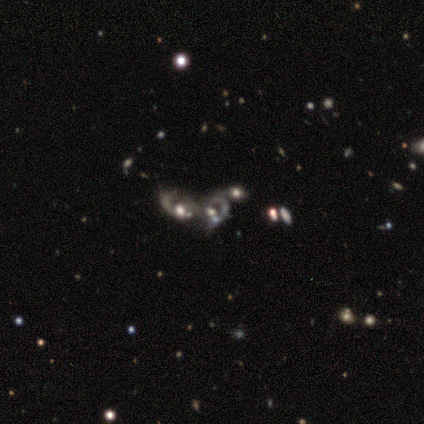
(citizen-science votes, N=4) Smooth or featured? 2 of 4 (50%, tied with star or artifact) said featured or disk. Edge-on disk? 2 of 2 (100%) said no. Bar? 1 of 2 (50%, tied with no) said weak. Spiral arms? 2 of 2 (100%) said yes. Spiral winding? 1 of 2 (50%, tied with loose) said medium. Spiral arm count? 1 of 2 (50%, tied with can't tell) said 2. Bulge size? 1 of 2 (50%, tied with small) said moderate. Merging? 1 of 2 (50%, tied with merger) said minor disturbance.